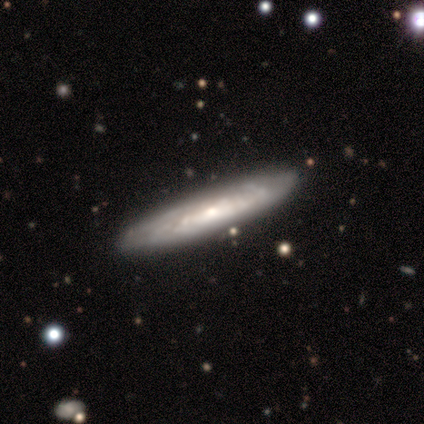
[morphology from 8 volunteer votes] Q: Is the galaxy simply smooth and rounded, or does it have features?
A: featured or disk — 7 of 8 (88%).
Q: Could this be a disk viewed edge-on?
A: yes — 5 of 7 (71%).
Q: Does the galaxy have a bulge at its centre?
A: rounded — 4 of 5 (80%).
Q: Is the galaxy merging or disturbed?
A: none — 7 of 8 (88%).